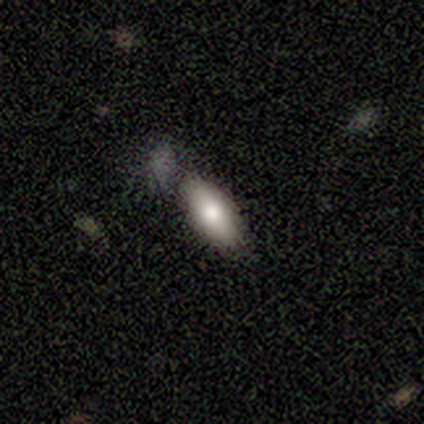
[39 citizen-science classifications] Smooth or featured?
  - smooth: 77% *
  - featured or disk: 15%
  - star or artifact: 8%
How rounded?
  - in between: 70% *
  - cigar-shaped: 27%
  - round: 3%
Merging?
  - none: 58% *
  - minor disturbance: 19%
  - major disturbance: 11%
  - merger: 11%